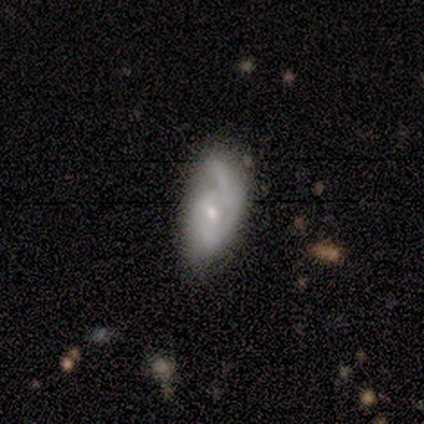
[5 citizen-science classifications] Smooth or featured?
  - smooth: 40% * (tied)
  - featured or disk: 40% * (tied)
  - star or artifact: 20%
How rounded?
  - in between: 100% *
  - round: 0%
  - cigar-shaped: 0%
Merging?
  - none: 50% * (tied)
  - major disturbance: 50% * (tied)
  - minor disturbance: 0%
  - merger: 0%